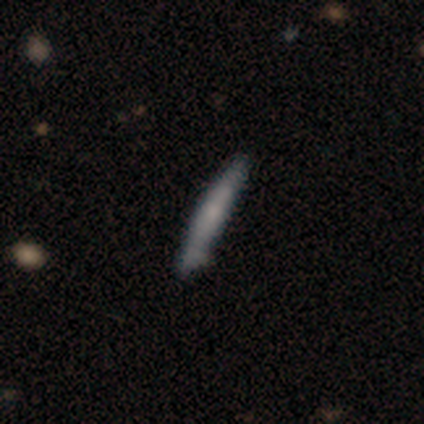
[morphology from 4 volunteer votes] Smooth or featured? smooth (75%)
How rounded? cigar-shaped (100%)
Merging? none (100%)